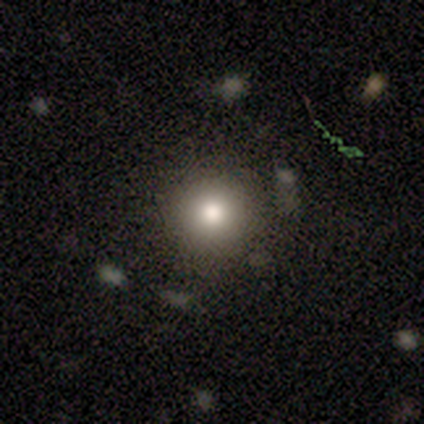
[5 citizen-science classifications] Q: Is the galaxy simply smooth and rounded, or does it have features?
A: smooth — 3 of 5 (60%).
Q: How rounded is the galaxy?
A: round — 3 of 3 (100%).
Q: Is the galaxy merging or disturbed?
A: none — 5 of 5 (100%).